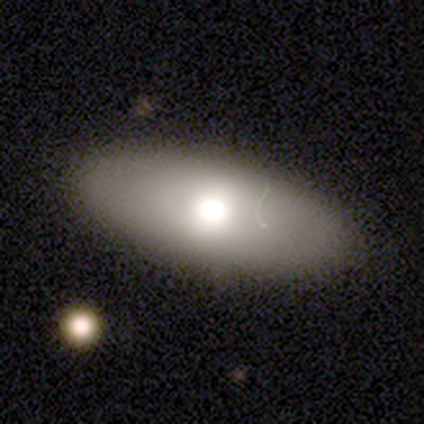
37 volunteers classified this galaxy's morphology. Q: Smooth or featured?
A: smooth (68%); runner-up: featured or disk (27%)
Q: How rounded?
A: in between (88%); runner-up: round (8%)
Q: Merging?
A: none (89%); runner-up: minor disturbance (9%)